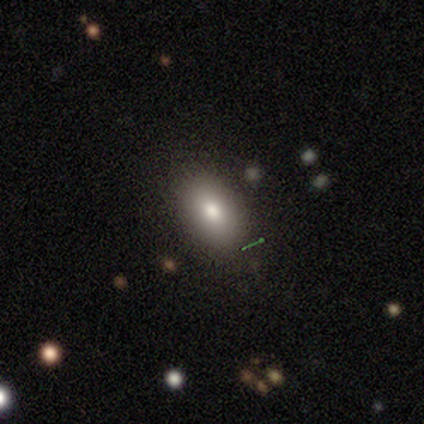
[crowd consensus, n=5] Volunteers were most divided on "smooth or featured": smooth: 80%, featured or disk: 20%, star or artifact: 0%. More confident: how rounded — in between (100%); merging — none (80%).